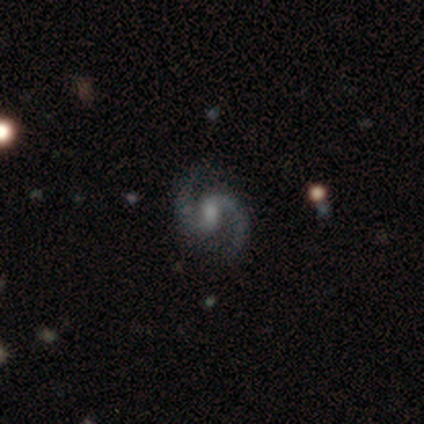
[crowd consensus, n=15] Q: Smooth or featured?
A: featured or disk (93%); runner-up: smooth (7%)
Q: Edge-on disk?
A: no (93%); runner-up: yes (7%)
Q: Bar?
A: weak (77%); runner-up: strong (15%)
Q: Spiral arms?
A: yes (85%); runner-up: no (15%)
Q: Spiral winding?
A: medium (45%); runner-up: loose (36%)
Q: Spiral arm count?
A: 2 (100%)
Q: Bulge size?
A: small (62%); runner-up: moderate (23%)
Q: Merging?
A: none (80%); runner-up: major disturbance (13%)